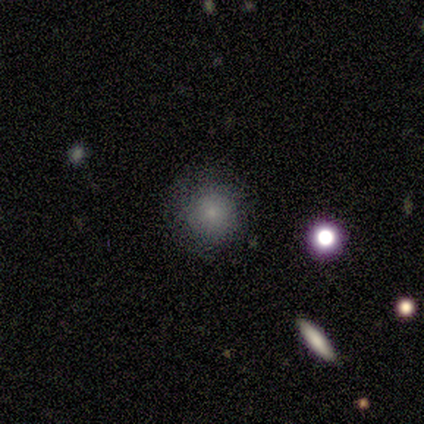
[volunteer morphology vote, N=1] Smooth or featured? 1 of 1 (100%) said featured or disk. Edge-on disk? 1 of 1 (100%) said no. Bar? 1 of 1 (100%) said no. Spiral arms? 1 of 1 (100%) said no. Bulge size? 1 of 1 (100%) said none. Merging? 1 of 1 (100%) said none.